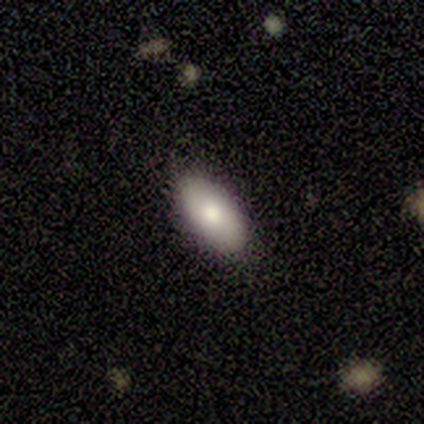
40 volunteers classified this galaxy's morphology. A smooth galaxy with no disk features (72%) that is in between round and cigar-shaped (97%). Merging: none (89%).